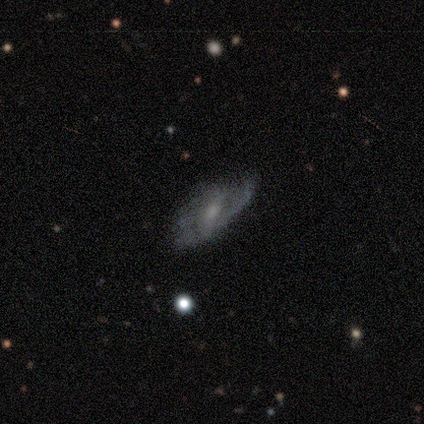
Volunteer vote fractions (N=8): Volunteers were most divided on "smooth or featured": featured or disk: 62%, smooth: 38%, star or artifact: 0%. More confident: edge-on disk — no (80%); spiral arms — yes (75%); spiral winding — medium (67%); spiral arm count — can't tell (67%); bar — weak (50%); bulge size — moderate (50%); merging — none (50%).